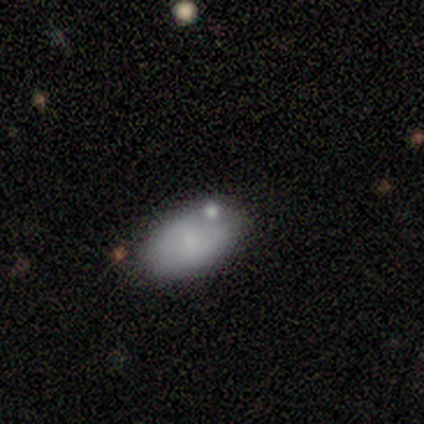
Smooth or featured: smooth — 100%
How rounded: in between — 100%
Merging: none — 40% (tied with minor disturbance — 40%)